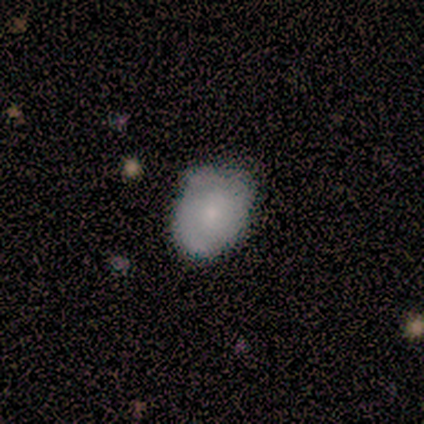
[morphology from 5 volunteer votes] A smooth galaxy with no disk features (80%) that is in between round and cigar-shaped (75%). Merging: none (80%).